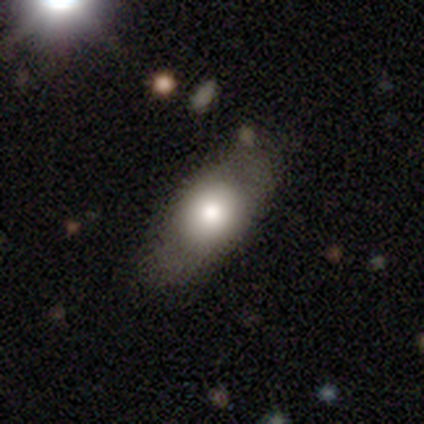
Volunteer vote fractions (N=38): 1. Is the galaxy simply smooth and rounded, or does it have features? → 61% smooth, 37% featured or disk, 3% star or artifact.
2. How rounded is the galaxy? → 78% in between, 13% cigar-shaped, 9% round.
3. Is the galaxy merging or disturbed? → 59% none, 24% minor disturbance, 11% major disturbance, 5% merger.